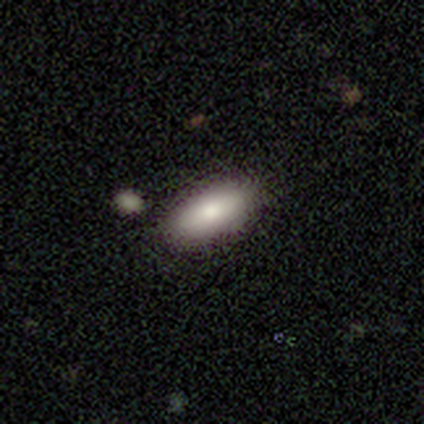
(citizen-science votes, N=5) smooth_or_featured: smooth (p=1.00)
how_rounded: in between (p=0.80) [alt: cigar-shaped p=0.20]
merging: none (p=0.80) [alt: minor disturbance p=0.20]